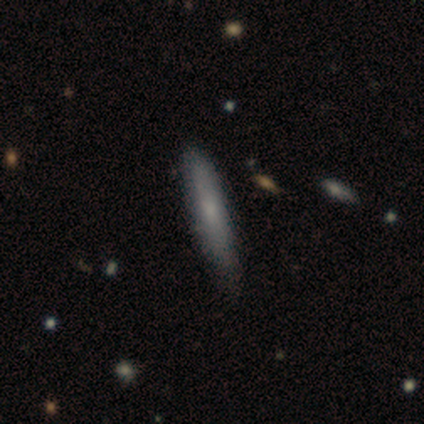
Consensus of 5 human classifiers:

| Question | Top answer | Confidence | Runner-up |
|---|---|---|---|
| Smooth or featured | smooth | 60% | featured or disk (40%) |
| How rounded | cigar-shaped | 100% | — |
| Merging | none | 80% | minor disturbance (20%) |